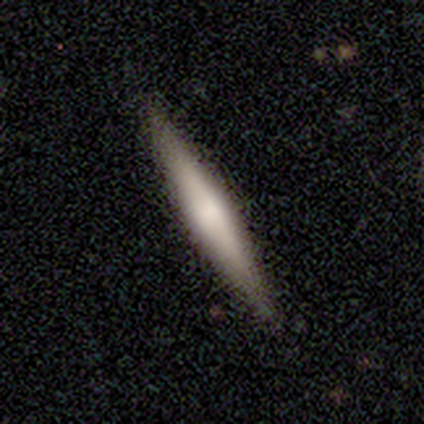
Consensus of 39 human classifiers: This appears to be a smooth galaxy with no disk features (59%) that is cigar-shaped (96%). Merging: none (92%).